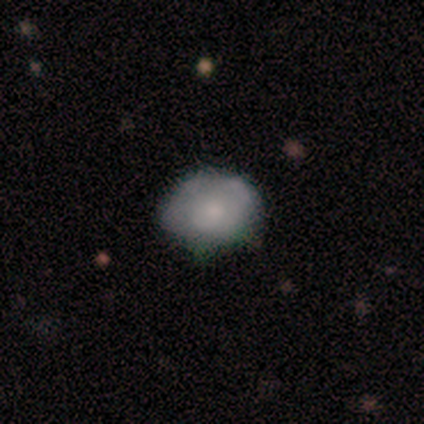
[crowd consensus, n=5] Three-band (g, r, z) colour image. It shows a smooth galaxy with no disk features (80%) that is round (50%, tied with in between). Merging: none (80%).